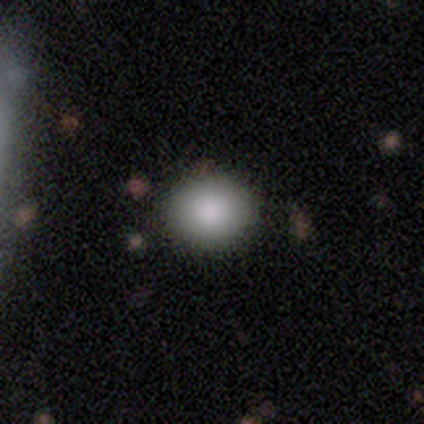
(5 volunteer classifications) Overall: smooth (80%). How rounded: round (100%). Merging: none (100%).